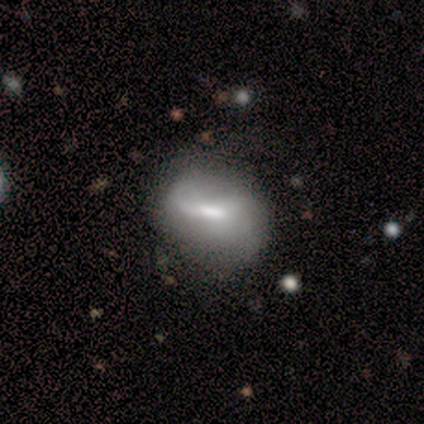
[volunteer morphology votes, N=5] Smooth or featured?
  - smooth: 40% * (tied)
  - featured or disk: 40% * (tied)
  - star or artifact: 20%
How rounded?
  - in between: 100% *
  - round: 0%
  - cigar-shaped: 0%
Merging?
  - none: 100% *
  - minor disturbance: 0%
  - major disturbance: 0%
  - merger: 0%